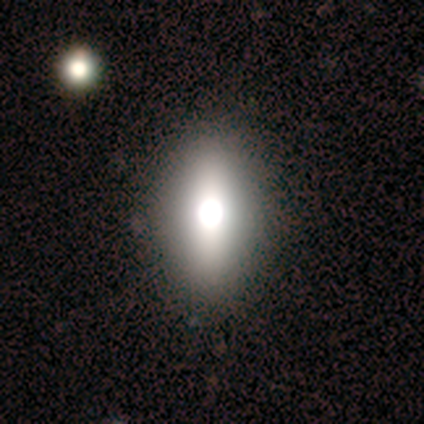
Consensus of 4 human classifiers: Smooth or featured?
  - smooth: 75% *
  - star or artifact: 25%
  - featured or disk: 0%
How rounded?
  - in between: 100% *
  - round: 0%
  - cigar-shaped: 0%
Merging?
  - none: 100% *
  - minor disturbance: 0%
  - major disturbance: 0%
  - merger: 0%